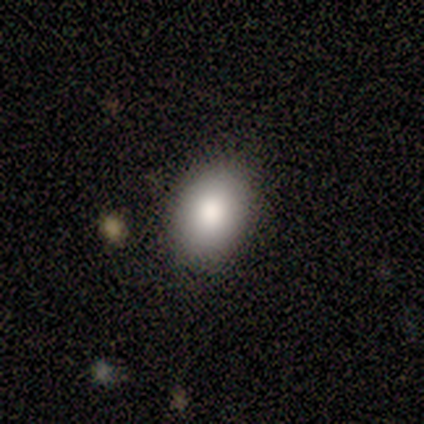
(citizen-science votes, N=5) Smooth or featured? 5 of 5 (100%) said smooth. How rounded? 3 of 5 (60%) said round. Merging? 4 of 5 (80%) said none.